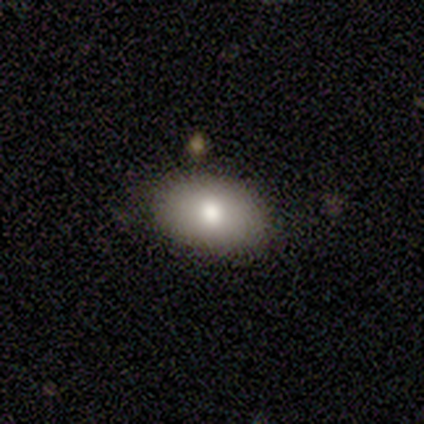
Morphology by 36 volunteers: This is clearly a smooth galaxy (81%). How rounded: likely in between (79%). Merging: clearly none (82%).